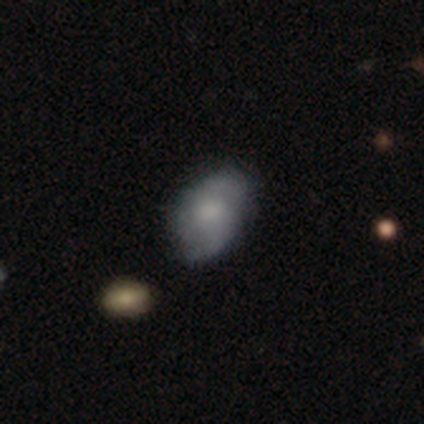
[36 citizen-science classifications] A featured or disk galaxy (50%) with no bar (67%), 2 (93%) loose (43%) spiral arms (78%) and a moderate central bulge (44%).

Vote fractions:
- Smooth or featured? featured or disk: 50% / smooth: 44% / star or artifact: 6%
- Edge-on disk? no: 100% / yes: 0%
- Bar? no: 67% / weak: 28% / strong: 6%
- Spiral arms? yes: 78% / no: 22%
- Spiral winding? loose: 43% / tight: 29% / medium: 29%
- Spiral arm count? 2: 93% / 3: 7% / 1: 0% / 4: 0% / more than 4: 0% / can't tell: 0%
- Bulge size? moderate: 44% / small: 22% / none: 17% / dominant: 11% / large: 6%
- Merging? none: 74% / minor disturbance: 21% / major disturbance: 3% / merger: 3%